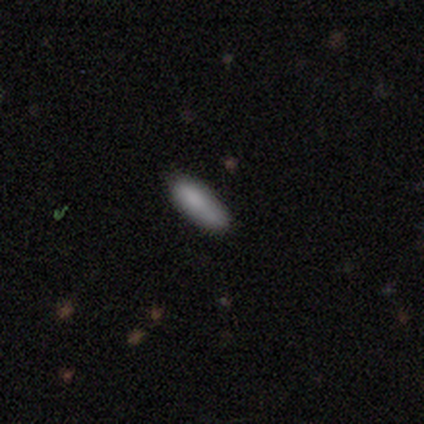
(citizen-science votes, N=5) Volunteers were most divided on "smooth or featured": smooth: 80%, featured or disk: 20%, star or artifact: 0%. More confident: how rounded — in between (100%); merging — none (80%).